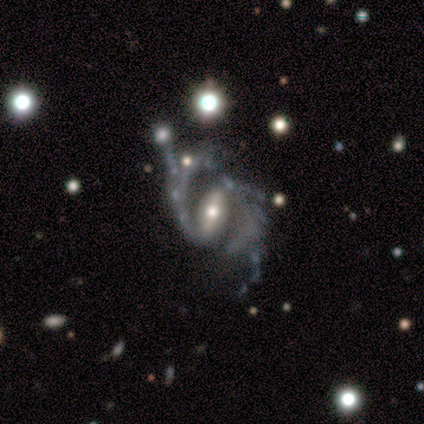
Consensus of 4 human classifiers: Smooth or featured: featured or disk — 75% (star or artifact — 25%)
Edge-on disk: no — 100%
Bar: strong — 67% (weak — 33%)
Spiral arms: yes — 100%
Spiral winding: medium — 67% (loose — 33%)
Spiral arm count: 2 — 67% (3 — 33%)
Bulge size: moderate — 100%
Merging: none — 67% (major disturbance — 33%)